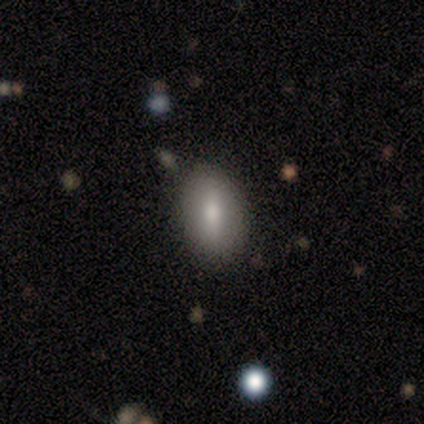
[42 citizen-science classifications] smooth 64%, featured or disk 24%, star or artifact 12%. Down the decision tree: how rounded — in between (93%); merging — none (89%).